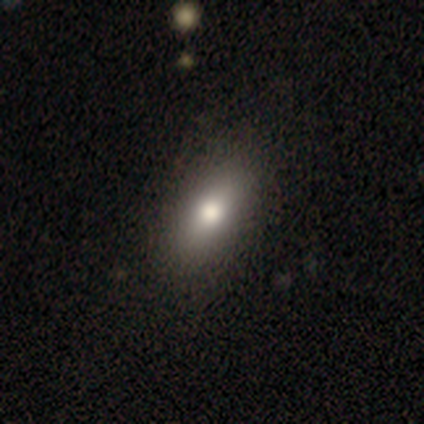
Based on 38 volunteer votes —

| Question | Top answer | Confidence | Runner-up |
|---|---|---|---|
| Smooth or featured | smooth | 84% | featured or disk (13%) |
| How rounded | in between | 81% | cigar-shaped (12%) |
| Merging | none | 62% | major disturbance (8%) |